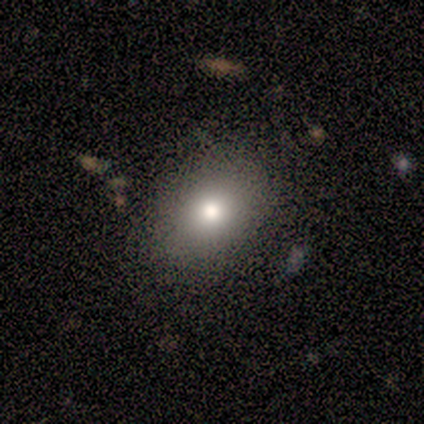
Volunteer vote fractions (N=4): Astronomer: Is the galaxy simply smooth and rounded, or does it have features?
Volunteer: smooth — 75%.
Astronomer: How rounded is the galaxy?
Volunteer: in between — 67%.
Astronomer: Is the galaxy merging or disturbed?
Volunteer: none — 67%.